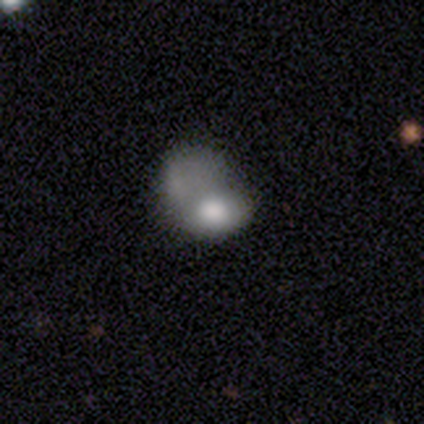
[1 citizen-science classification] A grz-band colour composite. It shows a smooth galaxy with no disk features (100%) that is in between round and cigar-shaped (100%). Merging: major disturbance (100%).